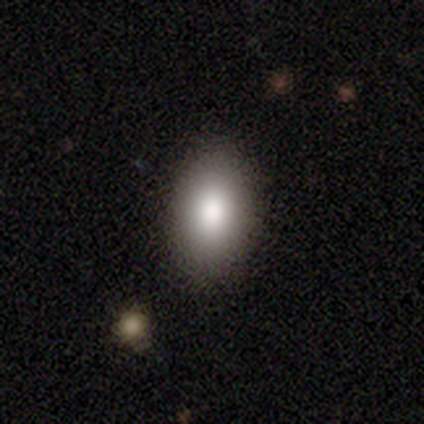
Smooth or featured?
  - smooth: 80% *
  - star or artifact: 20%
  - featured or disk: 0%
How rounded?
  - in between: 75% *
  - round: 25%
  - cigar-shaped: 0%
Merging?
  - none: 100% *
  - minor disturbance: 0%
  - major disturbance: 0%
  - merger: 0%